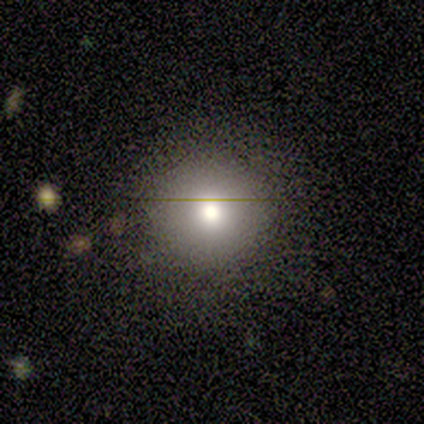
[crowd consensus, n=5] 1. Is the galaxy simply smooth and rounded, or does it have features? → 60% smooth, 20% featured or disk, 20% star or artifact.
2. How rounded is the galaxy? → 100% round, 0% in between, 0% cigar-shaped.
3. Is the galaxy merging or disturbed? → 75% none, 25% minor disturbance, 0% major disturbance, 0% merger.